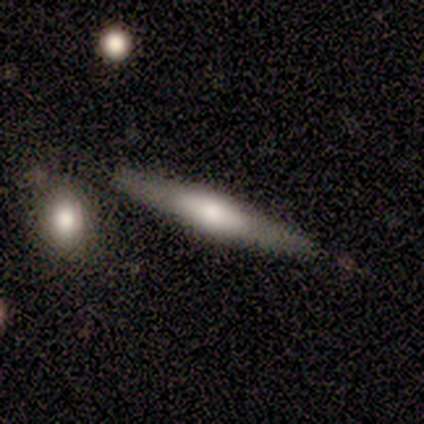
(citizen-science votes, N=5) smooth-or-featured: featured or disk: 100% | smooth: 0% | star or artifact: 0%
  disk-edge-on: yes: 100% | no: 0%
    edge-on-bulge: rounded: 80% | boxy: 20% | none: 0%
  merging: minor disturbance: 60% | none: 40% | major disturbance: 0% | merger: 0%